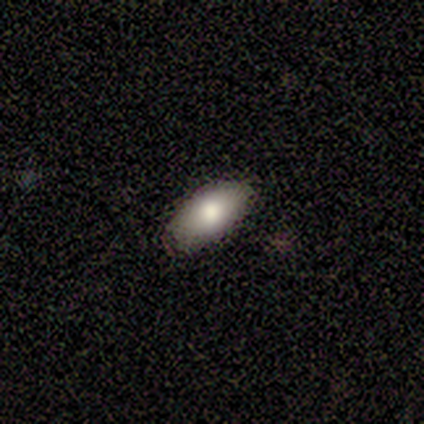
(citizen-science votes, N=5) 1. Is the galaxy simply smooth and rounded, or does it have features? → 100% smooth, 0% featured or disk, 0% star or artifact.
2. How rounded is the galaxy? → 80% in between, 20% cigar-shaped, 0% round.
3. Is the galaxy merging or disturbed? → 100% none, 0% minor disturbance, 0% major disturbance, 0% merger.